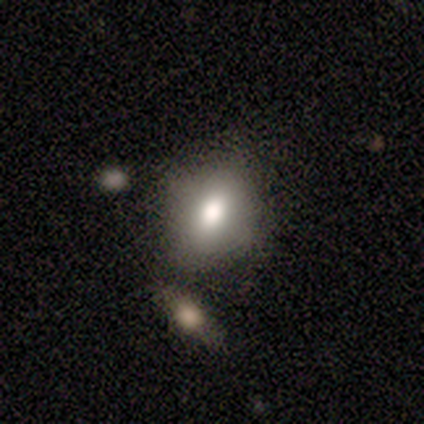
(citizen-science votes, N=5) Morphology: type=smooth (80%); roundness=in between (75%); merging=none (60%).